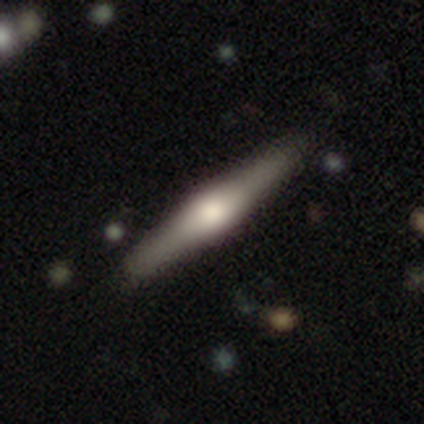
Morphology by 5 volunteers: This appears to be a featured or disk galaxy (80%) viewed edge-on (100%) with a rounded central bulge (100%). Merging: none (100%).